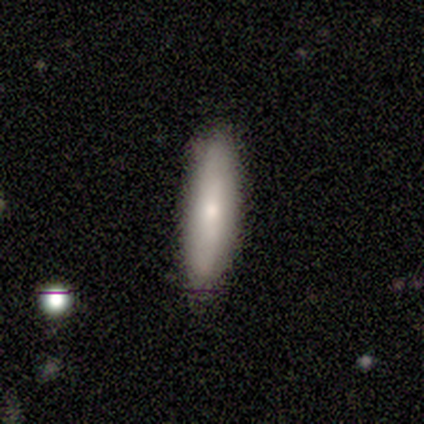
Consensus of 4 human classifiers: A smooth galaxy with no disk features (50%) that is cigar-shaped (100%). Merging: none (100%).